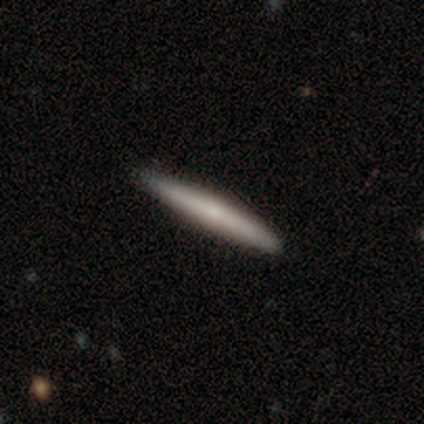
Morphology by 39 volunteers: Smooth or featured?
  - featured or disk: 51% *
  - smooth: 49%
  - star or artifact: 0%
Edge-on disk?
  - yes: 90% *
  - no: 10%
Edge-on bulge?
  - rounded: 61% *
  - none: 22%
  - boxy: 17%
Merging?
  - none: 74% *
  - minor disturbance: 5%
  - merger: 3%
  - major disturbance: 0%